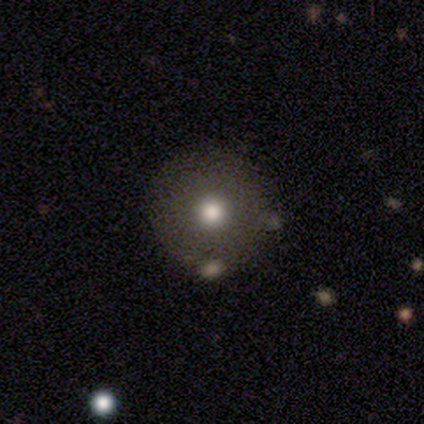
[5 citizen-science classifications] This appears to be a smooth galaxy with no disk features (80%) that is round (100%). Merging: none (100%).